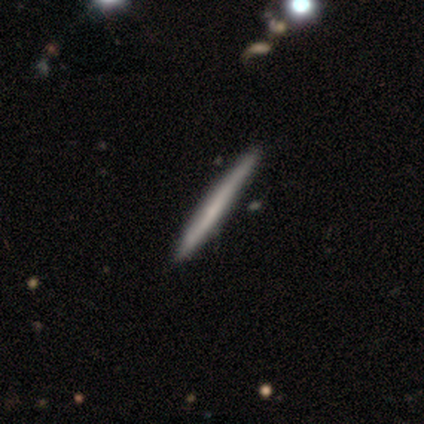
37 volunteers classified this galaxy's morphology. Smooth or featured?
  - smooth: 57% *
  - featured or disk: 38%
  - star or artifact: 5%
How rounded?
  - cigar-shaped: 100% *
  - round: 0%
  - in between: 0%
Merging?
  - none: 66% *
  - merger: 3%
  - minor disturbance: 0%
  - major disturbance: 0%